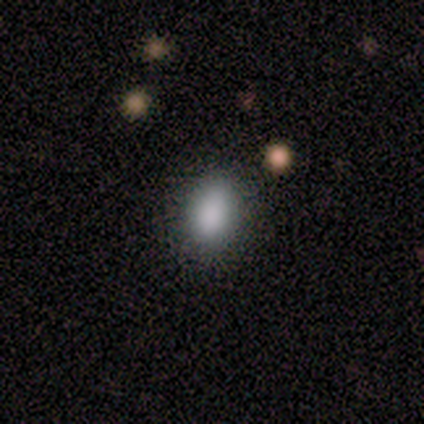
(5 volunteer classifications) This is clearly a smooth galaxy (80%). How rounded: clearly in between (100%). Merging: clearly none (80%).